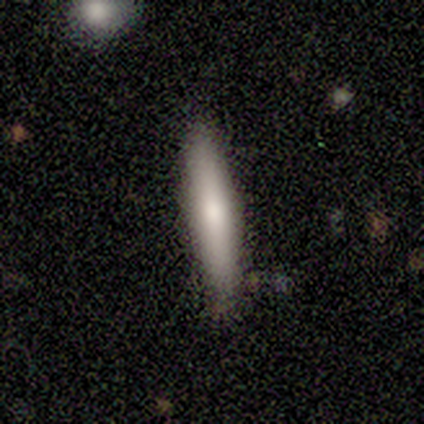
This is clearly a smooth galaxy (80%). How rounded: clearly cigar-shaped (100%). Merging: clearly none (80%).